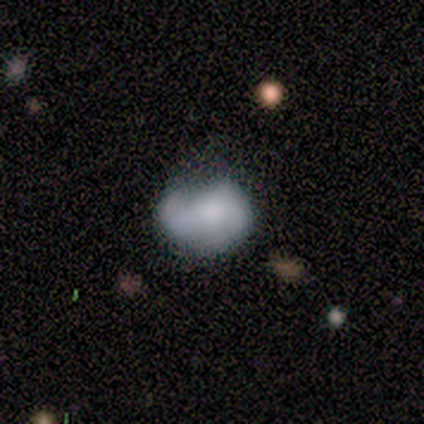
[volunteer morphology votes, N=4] smooth_or_featured: smooth (p=0.50) [tied with: featured or disk p=0.50]
how_rounded: round (p=0.50) [tied with: in between p=0.50]
merging: major disturbance (p=0.50) [alt: none p=0.25]